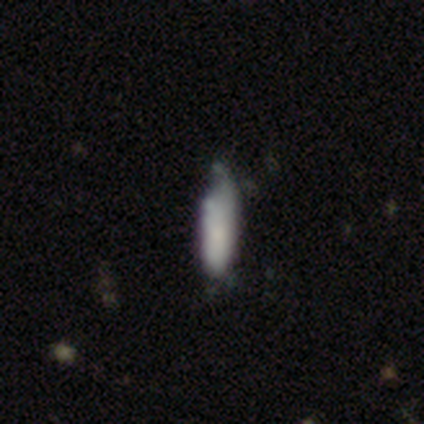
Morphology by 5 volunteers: A smooth galaxy with no disk features (80%) that is cigar-shaped (75%).

Vote fractions:
- Smooth or featured? smooth: 80% / featured or disk: 20% / star or artifact: 0%
- How rounded? cigar-shaped: 75% / in between: 25% / round: 0%
- Merging? none: 40% (tied) / minor disturbance: 40% (tied) / major disturbance: 20% / merger: 0%